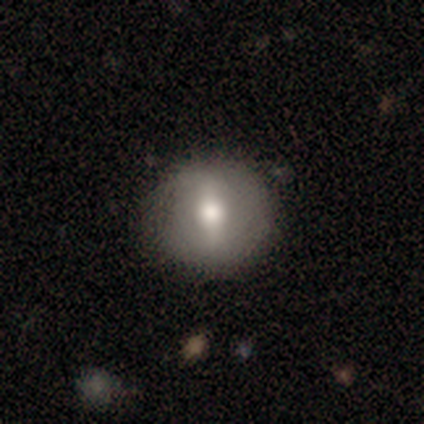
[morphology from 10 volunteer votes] smooth-or-featured: featured or disk: 60% | smooth: 40% | star or artifact: 0%
  disk-edge-on: no: 83% | yes: 17%
    bar: strong: 100% | weak: 0% | no: 0%
    has-spiral-arms: no: 80% | yes: 20%
    bulge-size: moderate: 80% | large: 20% | dominant: 0% | small: 0% | none: 0%
  merging: none: 70% | minor disturbance: 30% | major disturbance: 0% | merger: 0%